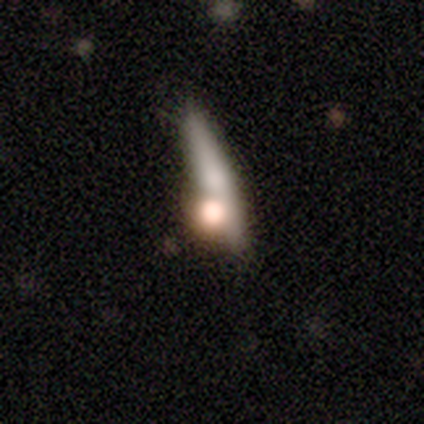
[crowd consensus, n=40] Smooth or featured? 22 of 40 (55%) said featured or disk. Edge-on disk? 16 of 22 (73%) said yes. Edge-on bulge? 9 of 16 (56%) said rounded. Merging? 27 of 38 (71%) said none.